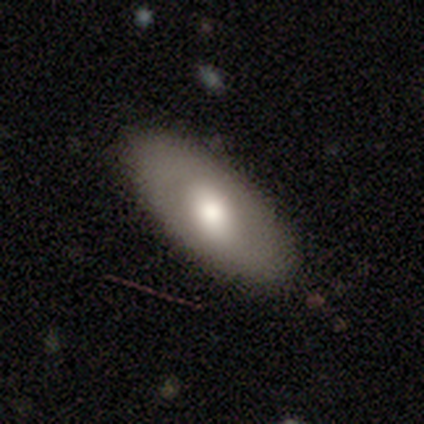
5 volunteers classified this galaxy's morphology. Q: Smooth or featured?
A: featured or disk (60%); runner-up: smooth (20%)
Q: Edge-on disk?
A: no (67%); runner-up: yes (33%)
Q: Bar?
A: weak (50%); tied with: no (50%)
Q: Spiral arms?
A: no (100%)
Q: Bulge size?
A: large (50%); tied with: moderate (50%)
Q: Merging?
A: none (75%); runner-up: merger (25%)